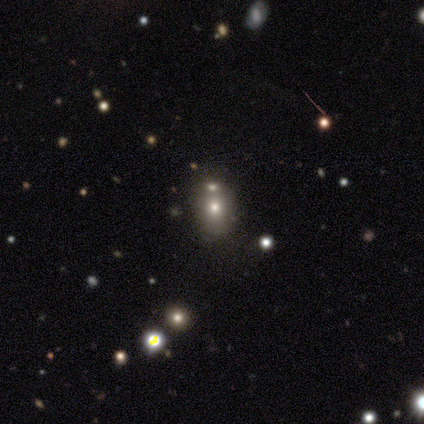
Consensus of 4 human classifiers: Overall: smooth (75%). How rounded: round (67%; in between 33%). Merging: none (67%; merger 33%).